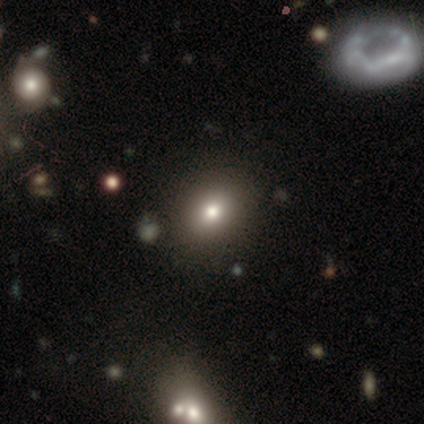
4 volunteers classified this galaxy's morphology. Smooth or featured?
  - smooth: 75% *
  - featured or disk: 25%
  - star or artifact: 0%
How rounded?
  - round: 67% *
  - in between: 33%
  - cigar-shaped: 0%
Merging?
  - none: 100% *
  - minor disturbance: 0%
  - major disturbance: 0%
  - merger: 0%